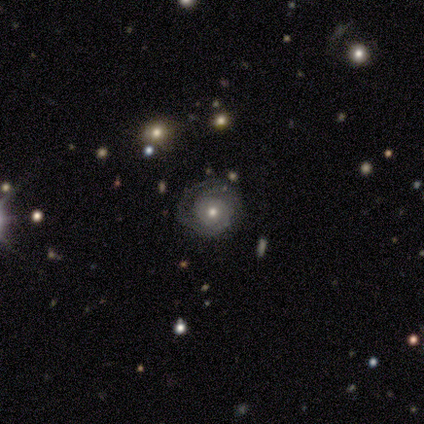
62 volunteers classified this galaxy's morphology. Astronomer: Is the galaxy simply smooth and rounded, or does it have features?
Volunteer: featured or disk — 71%.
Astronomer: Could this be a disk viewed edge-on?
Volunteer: no — 95%.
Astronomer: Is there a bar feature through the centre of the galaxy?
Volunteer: no — 90%.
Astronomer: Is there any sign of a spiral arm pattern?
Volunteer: yes — 93%.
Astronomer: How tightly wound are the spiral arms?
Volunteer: tight — 67%.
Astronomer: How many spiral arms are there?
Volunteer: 2 — 36% (runner-up: can't tell, 33%).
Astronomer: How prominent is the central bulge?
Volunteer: moderate — 69%.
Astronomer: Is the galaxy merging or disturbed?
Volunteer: none — 64%.